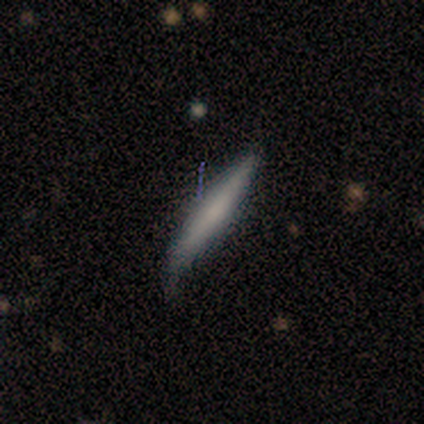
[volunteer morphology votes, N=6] Volunteers were most divided on "merging": minor disturbance: 50%, none: 33%, major disturbance: 17%, merger: 0%. More confident: how rounded — cigar-shaped (75%); smooth or featured — smooth (67%).